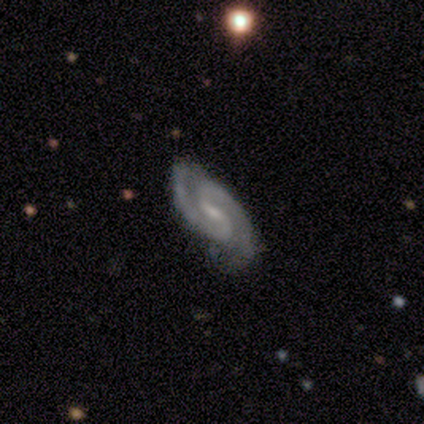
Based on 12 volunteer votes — This is clearly a featured or disk galaxy (100%). It is clearly not viewed edge-on (100%). Bar: likely weak (75%). Spiral arm pattern: clearly yes (100%). Spiral arm count: clearly 2 (100%). Spiral winding: likely medium (75%). Central bulge: clearly small (83%). Merging: clearly none (83%).